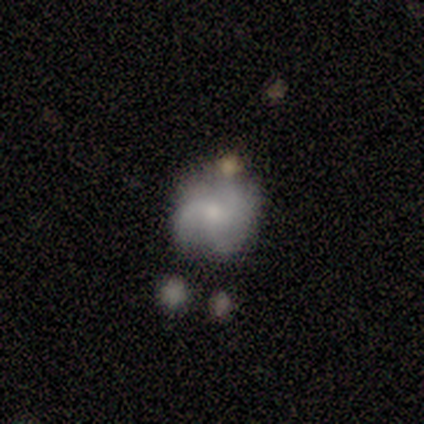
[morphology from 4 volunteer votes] A smooth galaxy with no disk features (50%, tied with featured or disk) that is round (100%).

Vote fractions:
- Smooth or featured? smooth: 50% (tied) / featured or disk: 50% (tied) / star or artifact: 0%
- How rounded? round: 100% / in between: 0% / cigar-shaped: 0%
- Merging? none: 75% / minor disturbance: 25% / major disturbance: 0% / merger: 0%